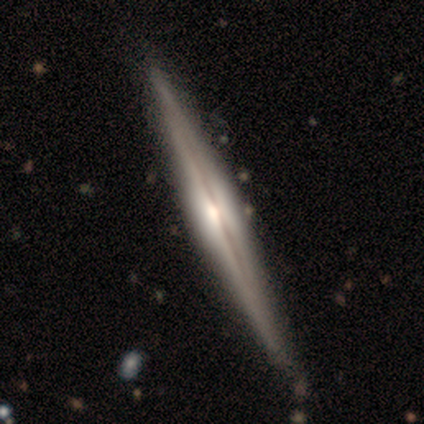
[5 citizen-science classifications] Smooth or featured: featured or disk — 100%
Edge-on disk: yes — 100%
Edge-on bulge: rounded — 80% (boxy — 20%)
Merging: none — 80% (merger — 20%)